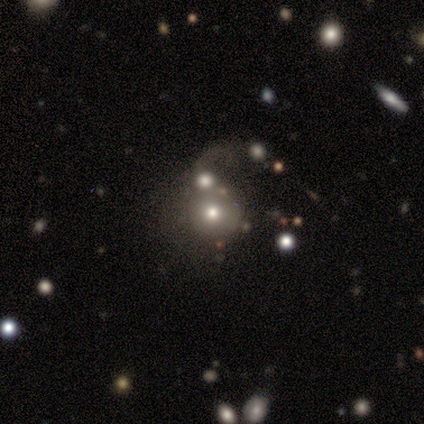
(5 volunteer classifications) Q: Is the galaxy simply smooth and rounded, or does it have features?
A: featured or disk — 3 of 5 (60%).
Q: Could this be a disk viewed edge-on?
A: no — 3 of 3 (100%).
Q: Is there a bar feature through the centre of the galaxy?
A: no — 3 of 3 (100%).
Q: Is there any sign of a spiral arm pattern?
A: no — 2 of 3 (67%).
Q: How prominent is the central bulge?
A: dominant — 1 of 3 (33%, tied with moderate and small).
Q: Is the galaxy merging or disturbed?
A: merger — 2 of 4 (50%).